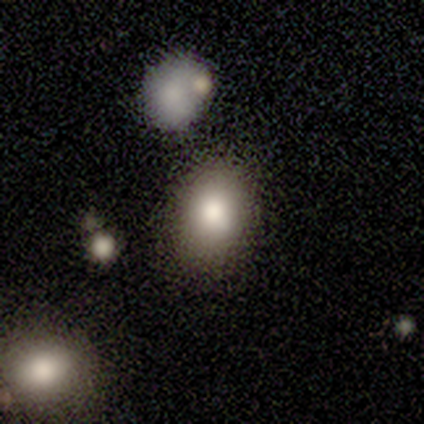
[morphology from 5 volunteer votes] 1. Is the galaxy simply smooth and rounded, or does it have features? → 80% smooth, 20% featured or disk, 0% star or artifact.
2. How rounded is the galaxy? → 75% round, 25% in between, 0% cigar-shaped.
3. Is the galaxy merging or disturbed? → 80% none, 20% minor disturbance, 0% major disturbance, 0% merger.